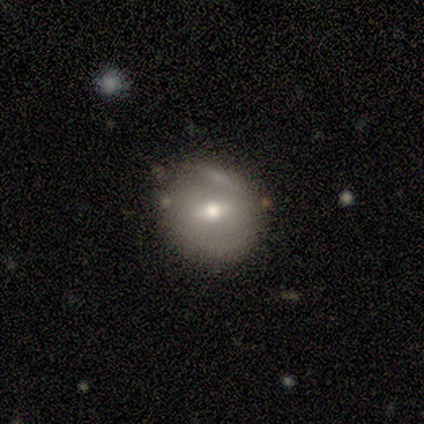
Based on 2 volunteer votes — Q: Smooth or featured?
A: smooth (50%); tied with: featured or disk (50%)
Q: How rounded?
A: round (100%)
Q: Merging?
A: none (50%); tied with: minor disturbance (50%)